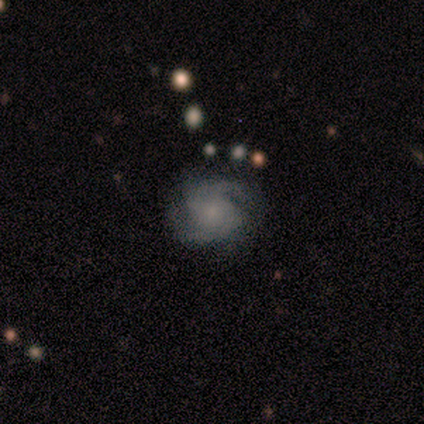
Smooth or featured: featured or disk — 80% (star or artifact — 20%)
Edge-on disk: no — 100%
Bar: no — 100%
Spiral arms: yes — 100%
Spiral winding: loose — 50% (tight — 25%)
Spiral arm count: 2 — 50% (tied with can't tell — 50%)
Bulge size: small — 75% (none — 25%)
Merging: none — 100%